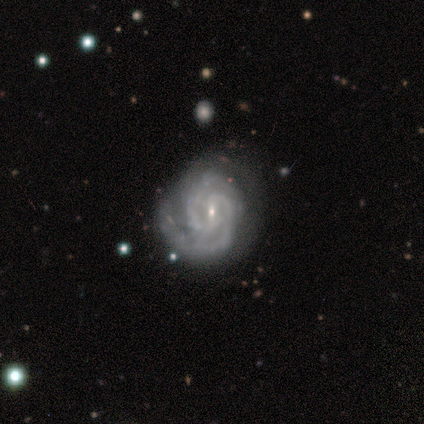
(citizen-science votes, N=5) This is clearly a featured or disk galaxy (100%). It is clearly not viewed edge-on (100%). Bar: clearly weak (80%). Spiral arm pattern: clearly yes (100%). Spiral arm count: clearly 2 (100%). Spiral winding: likely medium (60%). Central bulge: clearly small (100%). Merging: marginally none (40%, tied with minor disturbance).